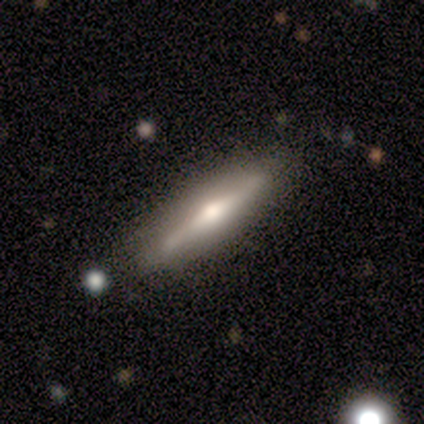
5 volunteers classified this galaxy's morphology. type=featured or disk (60%); edge-on=yes (100%); edge-on bulge=rounded (100%); merging=none (100%).